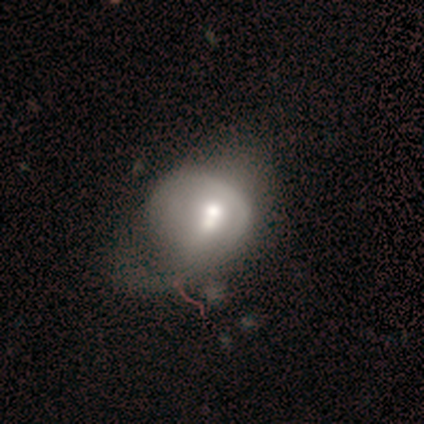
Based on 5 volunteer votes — A star or artifact, not a galaxy (60%).